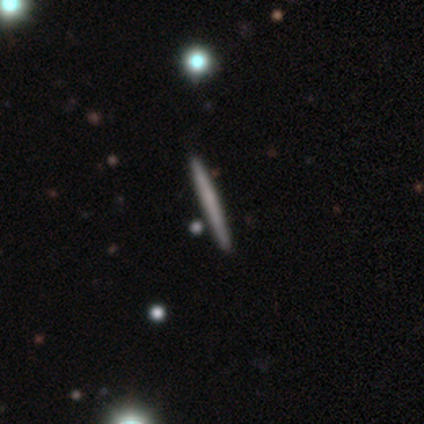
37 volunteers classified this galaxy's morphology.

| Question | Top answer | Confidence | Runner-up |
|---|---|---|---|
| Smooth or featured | smooth | 57% | featured or disk (35%) |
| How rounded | cigar-shaped | 100% | — |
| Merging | none | 100% | — |